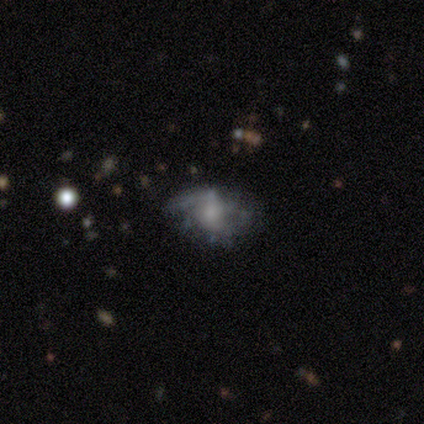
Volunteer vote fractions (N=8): smooth_or_featured: featured or disk (p=0.88) [alt: smooth p=0.12]
disk_edge_on: no (p=1.00)
bar: no (p=0.71) [alt: strong p=0.14]
has_spiral_arms: yes (p=0.57) [alt: no p=0.43]
spiral_winding: tight (p=0.50) [tied with: medium p=0.50]
spiral_arm_count: can't tell (p=0.50) [alt: 1 p=0.25]
bulge_size: small (p=0.57) [alt: moderate p=0.43]
merging: none (p=0.50) [alt: minor disturbance p=0.25]